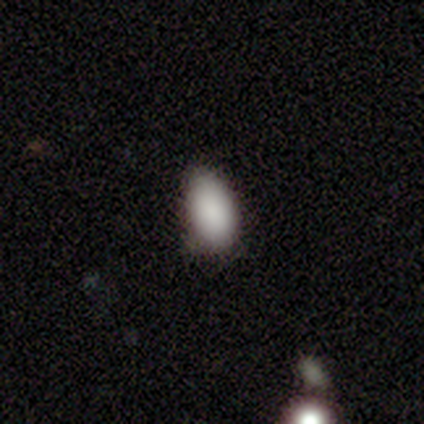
smooth 100%, featured or disk 0%, star or artifact 0%. Down the decision tree: how rounded — in between (100%); merging — none (80%).